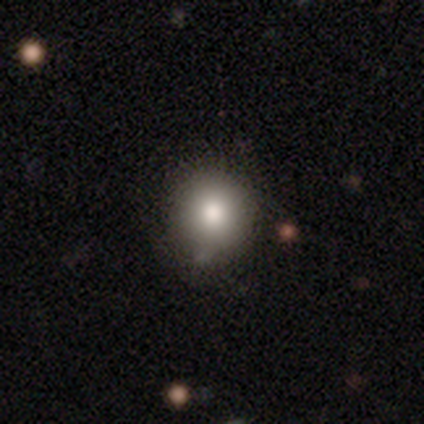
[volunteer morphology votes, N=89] Smooth or featured: smooth — 82% (featured or disk — 10%)
How rounded: round — 90% (in between — 10%)
Merging: none — 72% (minor disturbance — 21%)